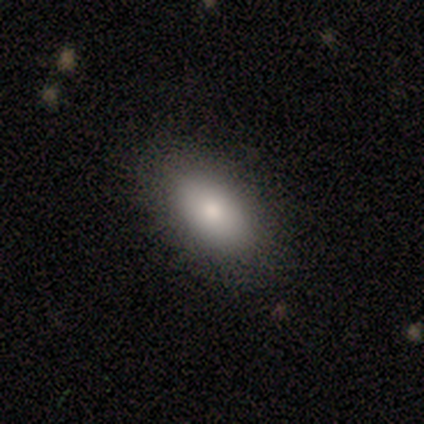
Overall: smooth (60%; featured or disk 40%). How rounded: in between (100%). Merging: none (100%).